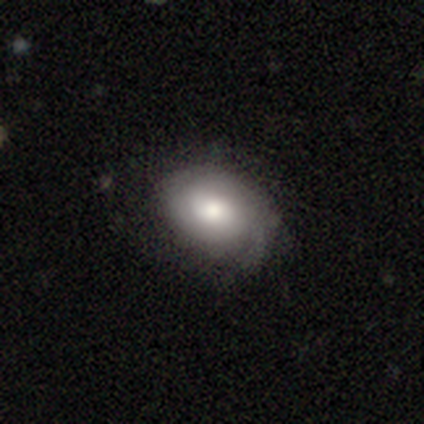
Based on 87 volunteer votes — smooth_or_featured: smooth (p=0.66) [alt: featured or disk p=0.28]
how_rounded: in between (p=0.75) [alt: round p=0.25]
merging: none (p=0.68) [alt: minor disturbance p=0.26]